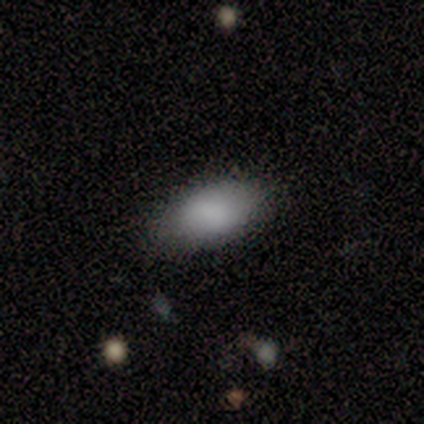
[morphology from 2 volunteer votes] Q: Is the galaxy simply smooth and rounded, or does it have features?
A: smooth — 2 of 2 (100%).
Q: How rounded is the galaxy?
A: in between — 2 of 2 (100%).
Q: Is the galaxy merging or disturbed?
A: none — 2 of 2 (100%).